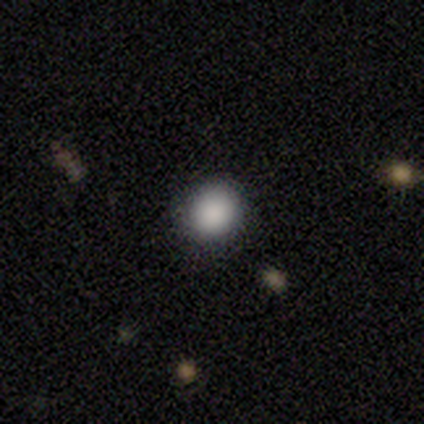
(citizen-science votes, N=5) smooth_or_featured: smooth (p=0.80) [alt: star or artifact p=0.20]
how_rounded: round (p=1.00)
merging: none (p=0.75) [alt: minor disturbance p=0.25]